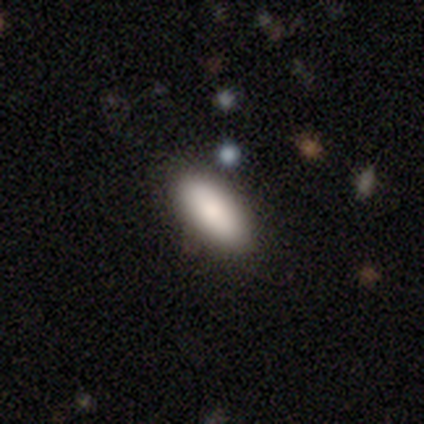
A smooth galaxy with no disk features (91%) that is in between round and cigar-shaped (87%). Merging: none (82%).